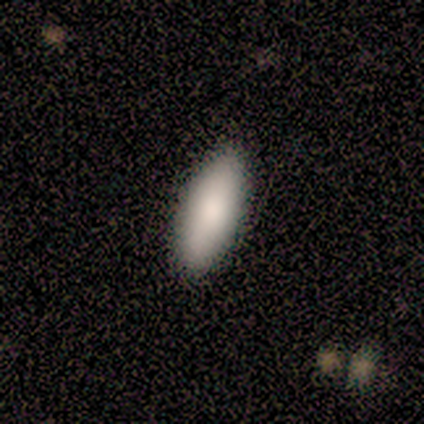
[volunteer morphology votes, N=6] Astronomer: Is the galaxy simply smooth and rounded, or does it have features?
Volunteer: smooth — 100%.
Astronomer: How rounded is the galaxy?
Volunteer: in between — 67%.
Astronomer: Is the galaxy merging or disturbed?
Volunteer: none — 67%.